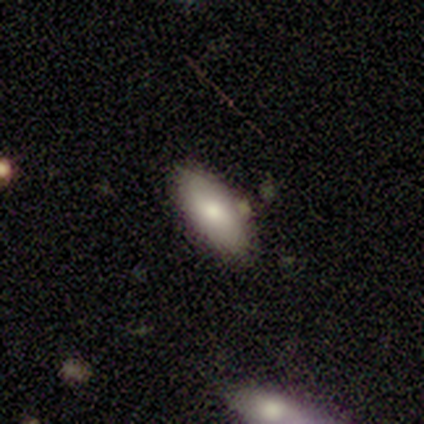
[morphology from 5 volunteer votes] Smooth or featured? smooth (80%)
How rounded? in between (75%)
Merging? none (100%)